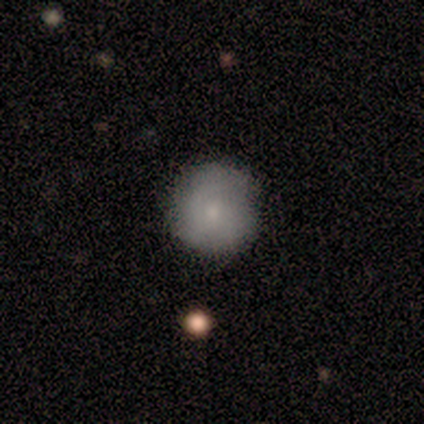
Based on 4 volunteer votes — smooth_or_featured: smooth (p=0.75) [alt: featured or disk p=0.25]
how_rounded: round (p=1.00)
merging: none (p=0.75) [alt: minor disturbance p=0.25]